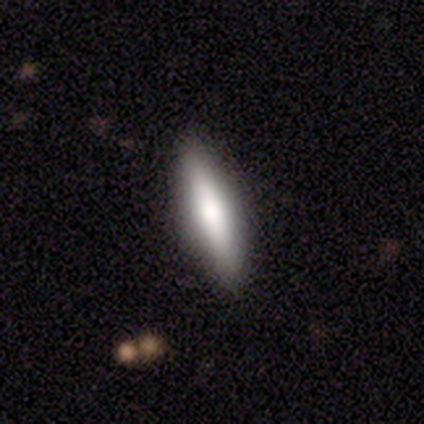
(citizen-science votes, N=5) A smooth galaxy with no disk features (60%) that is cigar-shaped (100%). Merging: none (80%).